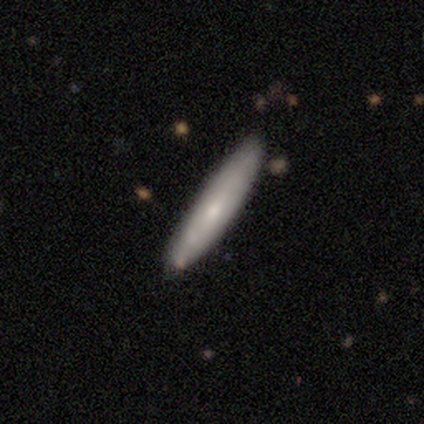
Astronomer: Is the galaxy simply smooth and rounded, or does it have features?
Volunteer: smooth — 58% (runner-up: featured or disk, 42%).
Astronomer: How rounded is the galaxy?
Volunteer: cigar-shaped — 100%.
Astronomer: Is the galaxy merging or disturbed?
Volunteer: none — 100%.